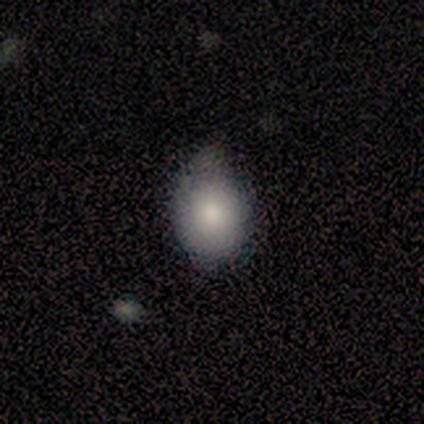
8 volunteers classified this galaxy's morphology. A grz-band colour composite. It shows a smooth galaxy with no disk features (50%) that is round (75%). Merging: none (67%).